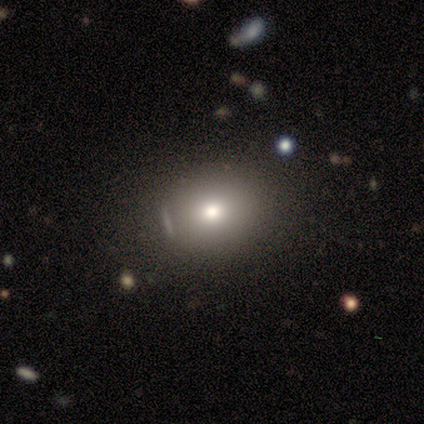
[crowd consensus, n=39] A smooth galaxy with no disk features (74%) that is round (62%). Merging: none (74%).